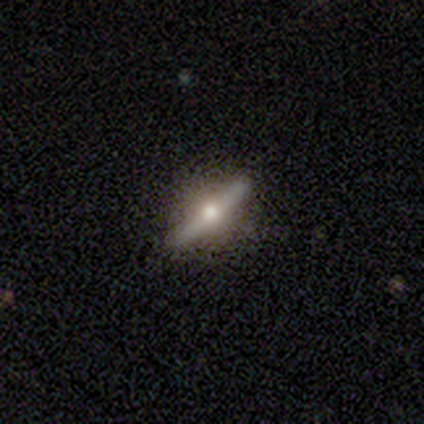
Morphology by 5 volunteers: Smooth or featured? featured or disk (100%)
Edge-on disk? yes (100%)
Edge-on bulge? rounded (100%)
Merging? none (80%)